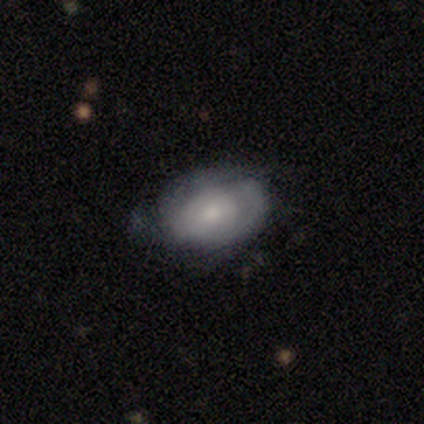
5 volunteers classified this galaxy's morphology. Smooth or featured? 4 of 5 (80%) said featured or disk. Edge-on disk? 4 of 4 (100%) said no. Bar? 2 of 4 (50%, tied with no) said weak. Spiral arms? 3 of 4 (75%) said no. Bulge size? 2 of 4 (50%, tied with small) said moderate. Merging? 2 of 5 (40%, tied with minor disturbance) said none.